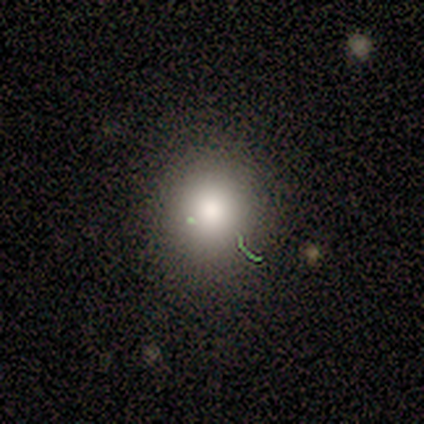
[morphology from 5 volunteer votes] smooth_or_featured: smooth (p=0.60) [alt: star or artifact p=0.40]
how_rounded: round (p=0.67) [alt: in between p=0.33]
merging: none (p=1.00)